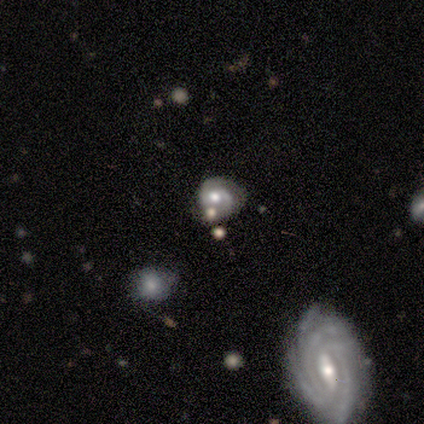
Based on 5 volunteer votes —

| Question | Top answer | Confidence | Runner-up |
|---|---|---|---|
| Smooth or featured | featured or disk | 60% | smooth (40%) |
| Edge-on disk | no | 100% | — |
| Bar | no | 67% | weak (33%) |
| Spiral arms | yes | 67% | no (33%) |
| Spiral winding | tight | 100% | — |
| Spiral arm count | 2 | 100% | — |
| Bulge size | moderate | 100% | — |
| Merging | none | 80% | minor disturbance (20%) |